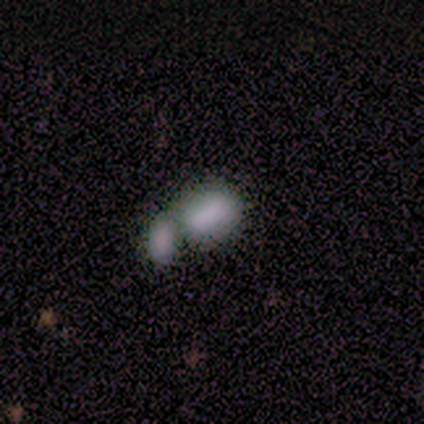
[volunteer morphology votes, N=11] A smooth galaxy with no disk features (100%) that is in between round and cigar-shaped (100%). Merging: merger (64%).